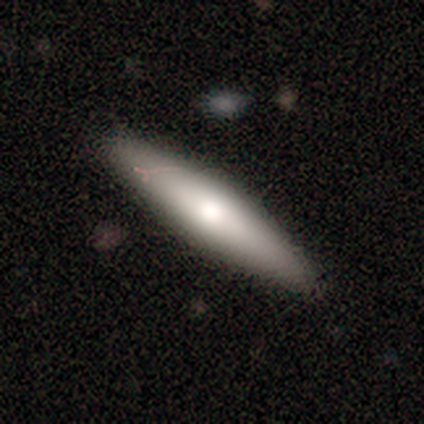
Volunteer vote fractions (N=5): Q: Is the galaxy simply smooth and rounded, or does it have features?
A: smooth — 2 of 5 (40%, tied with star or artifact).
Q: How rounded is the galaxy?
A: cigar-shaped — 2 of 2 (100%).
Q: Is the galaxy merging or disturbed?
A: none — 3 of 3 (100%).